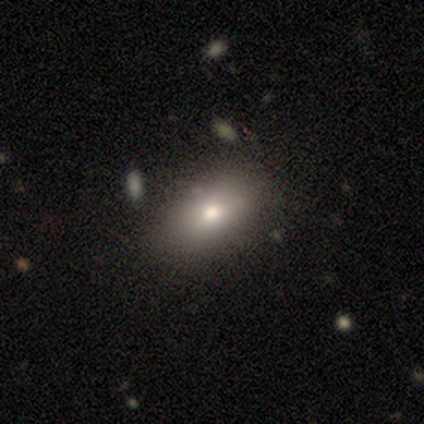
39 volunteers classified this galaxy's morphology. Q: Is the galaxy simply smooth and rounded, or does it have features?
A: smooth — 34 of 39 (87%).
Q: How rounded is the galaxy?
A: in between — 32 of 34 (94%).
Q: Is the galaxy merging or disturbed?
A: none — 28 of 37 (76%).